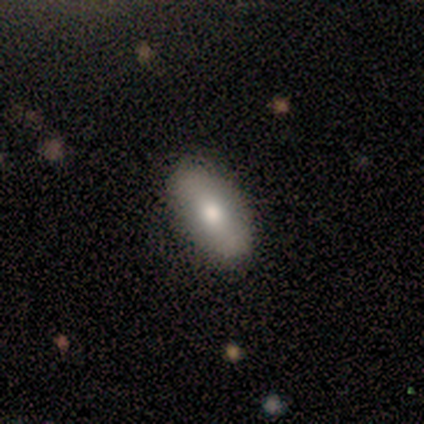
smooth_or_featured: smooth (p=0.60) [alt: featured or disk p=0.20]
how_rounded: in between (p=0.67) [alt: cigar-shaped p=0.33]
merging: none (p=0.75) [alt: merger p=0.25]